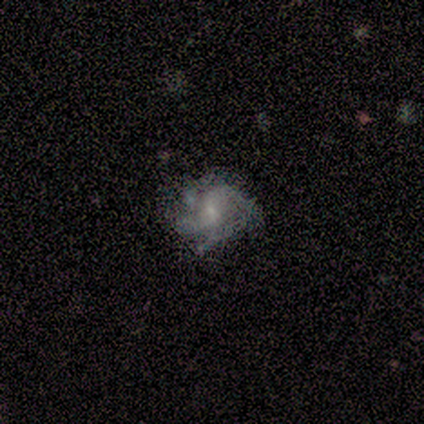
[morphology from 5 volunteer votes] smooth-or-featured: featured or disk: 100% | smooth: 0% | star or artifact: 0%
  disk-edge-on: no: 100% | yes: 0%
    bar: no: 60% | weak: 40% | strong: 0%
    has-spiral-arms: yes: 100% | no: 0%
      spiral-winding: medium: 80% | tight: 20% | loose: 0%
      spiral-arm-count: 4: 60% | more than 4: 20% | can't tell: 20% | 1: 0% | 2: 0% | 3: 0%
    bulge-size: small: 80% | none: 20% | dominant: 0% | large: 0% | moderate: 0%
  merging: none: 60% | minor disturbance: 20% | major disturbance: 20% | merger: 0%